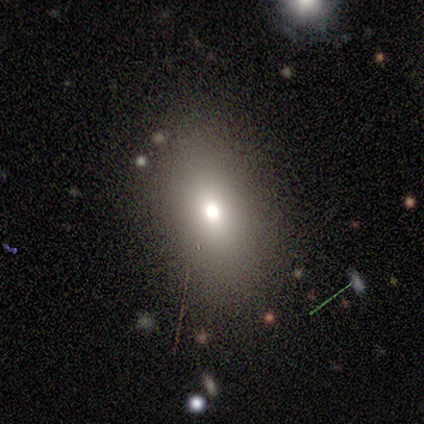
Volunteers were most divided on "smooth or featured" (2-way tie): smooth: 50%, star or artifact: 50%, featured or disk: 0%. More confident: how rounded — in between (100%); merging — none (100%).